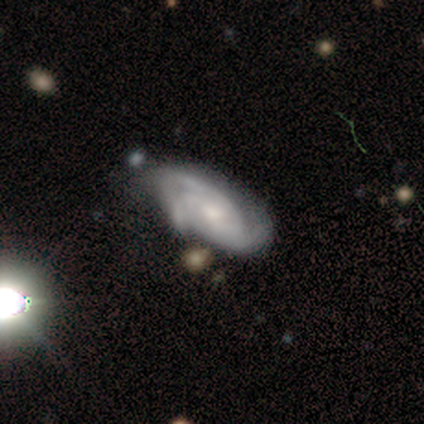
Smooth or featured? 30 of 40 (75%) said featured or disk. Edge-on disk? 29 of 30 (97%) said no. Bar? 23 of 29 (79%) said no. Spiral arms? 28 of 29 (97%) said yes. Spiral winding? 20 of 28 (71%) said tight. Spiral arm count? 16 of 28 (57%) said 3. Bulge size? 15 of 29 (52%) said small. Merging? 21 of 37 (57%) said none.